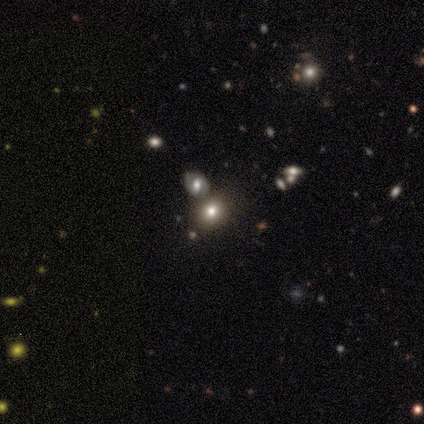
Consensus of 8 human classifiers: Smooth or featured: smooth — 75% (featured or disk — 12%)
How rounded: round — 50% (tied with in between — 50%)
Merging: none — 71% (major disturbance — 14%)